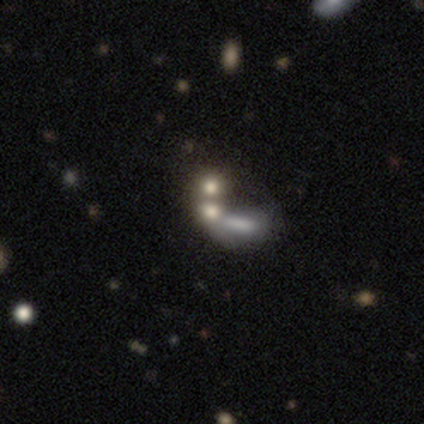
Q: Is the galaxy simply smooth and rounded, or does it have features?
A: smooth — 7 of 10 (70%).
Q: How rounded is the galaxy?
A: in between — 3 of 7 (43%).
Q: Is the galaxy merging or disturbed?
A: merger — 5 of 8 (62%).